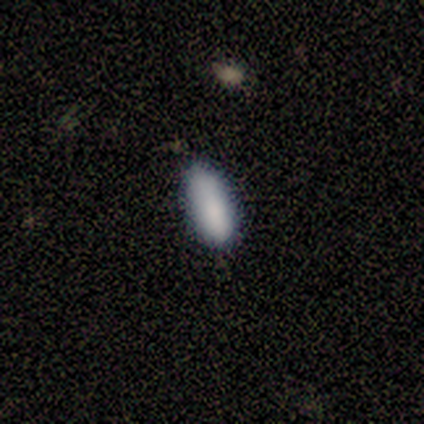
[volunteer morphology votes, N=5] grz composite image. It shows a smooth galaxy with no disk features (80%) that is in between round and cigar-shaped (50%, tied with cigar-shaped). Merging: none (75%).